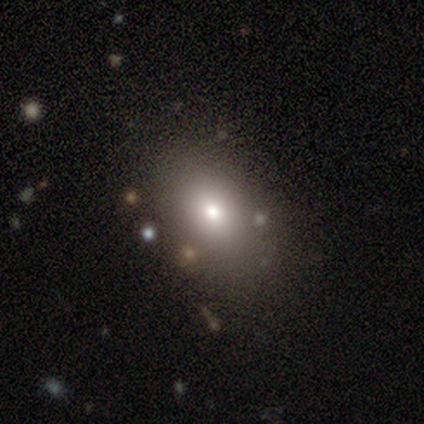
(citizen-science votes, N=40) Smooth or featured: smooth — 78% (featured or disk — 12%)
How rounded: in between — 77% (round — 23%)
Merging: none — 86% (major disturbance — 8%)